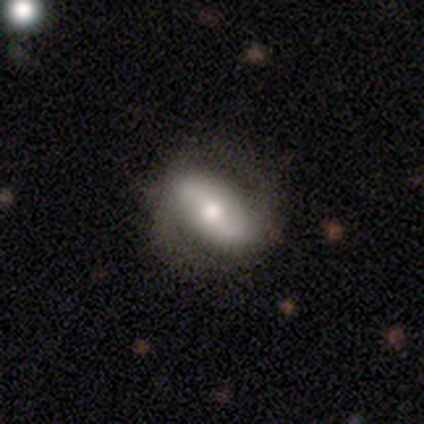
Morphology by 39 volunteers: featured or disk 59%, smooth 36%, star or artifact 5%. Down the decision tree: edge-on disk — no (91%); bar — no (52%); spiral arms — yes (62%); spiral arm count — 2 (100%); spiral winding — loose (46%); bulge size — moderate (67%); merging — none (70%).